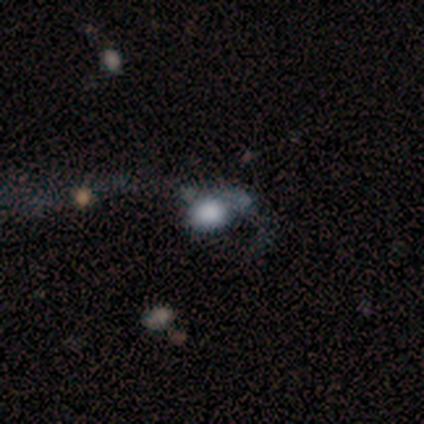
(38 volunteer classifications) Q: Smooth or featured?
A: smooth (61%); runner-up: featured or disk (37%)
Q: How rounded?
A: round (61%); runner-up: in between (39%)
Q: Merging?
A: major disturbance (57%); runner-up: none (19%)